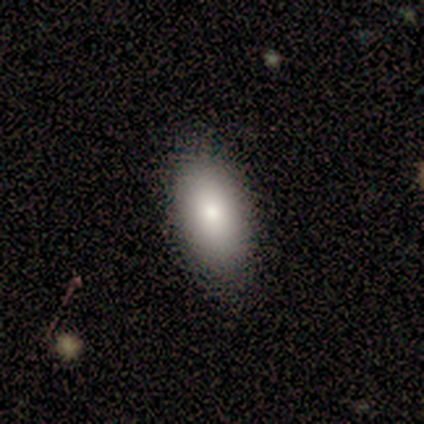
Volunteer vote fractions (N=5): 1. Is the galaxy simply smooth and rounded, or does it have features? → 100% smooth, 0% featured or disk, 0% star or artifact.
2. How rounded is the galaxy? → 100% in between, 0% round, 0% cigar-shaped.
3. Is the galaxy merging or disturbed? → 100% none, 0% minor disturbance, 0% major disturbance, 0% merger.